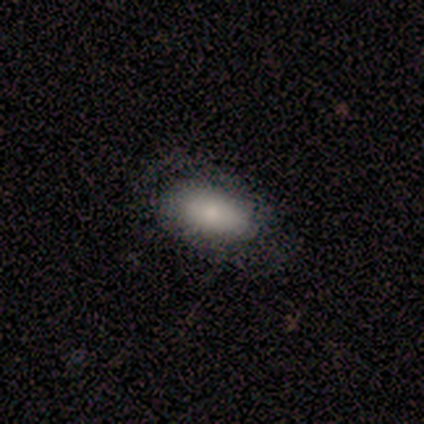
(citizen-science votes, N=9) This appears to be a smooth galaxy with no disk features (67%) that is in between round and cigar-shaped (83%). Merging: none (89%).